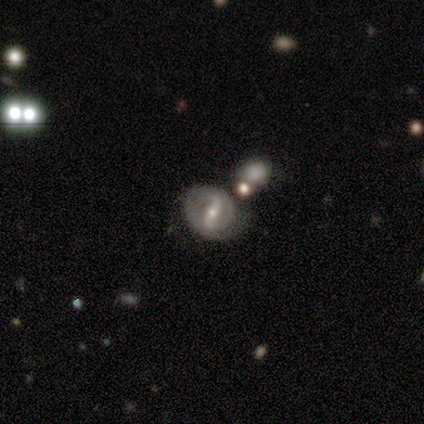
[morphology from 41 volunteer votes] featured or disk 80%, smooth 12%, star or artifact 7%. Down the decision tree: edge-on disk — no (100%); bar — strong (64%); spiral arms — yes (67%); spiral arm count — 2 (73%); spiral winding — tight (45%); bulge size — small (64%); merging — none (50%).